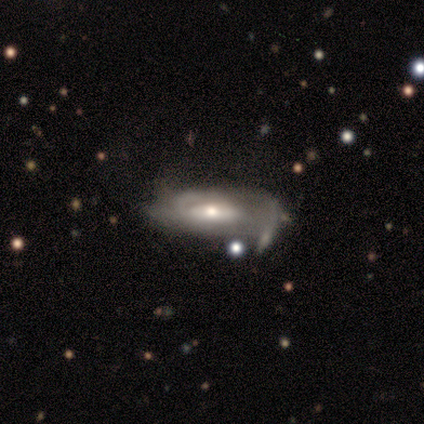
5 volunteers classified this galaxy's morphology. A featured or disk galaxy (80%) viewed edge-on (50%, tied with no) with no central bulge (50%, tied with rounded).

Vote fractions:
- Smooth or featured? featured or disk: 80% / smooth: 20% / star or artifact: 0%
- Edge-on disk? yes: 50% (tied) / no: 50% (tied)
- Edge-on bulge? none: 50% (tied) / rounded: 50% (tied) / boxy: 0%
- Merging? minor disturbance: 60% / major disturbance: 20% / merger: 20% / none: 0%